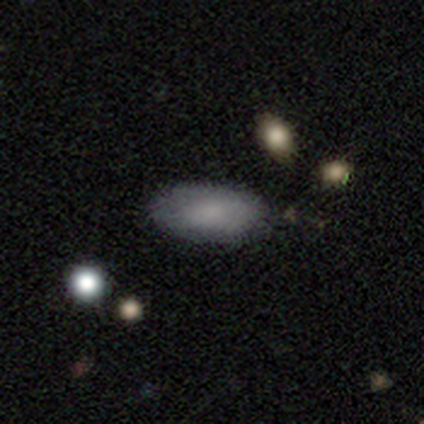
smooth 80%, star or artifact 20%, featured or disk 0%. Down the decision tree: how rounded — in between (100%); merging — none (100%).